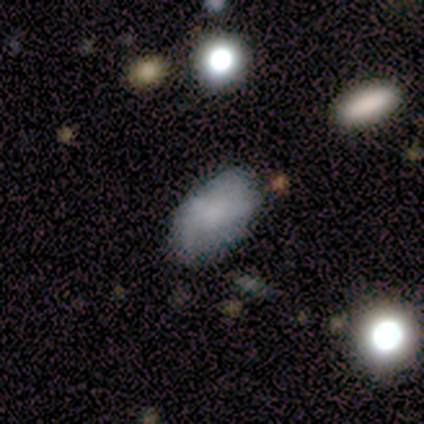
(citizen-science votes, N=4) Smooth or featured?
  - smooth: 50% *
  - featured or disk: 25%
  - star or artifact: 25%
How rounded?
  - in between: 100% *
  - round: 0%
  - cigar-shaped: 0%
Merging?
  - minor disturbance: 67% *
  - none: 33%
  - major disturbance: 0%
  - merger: 0%